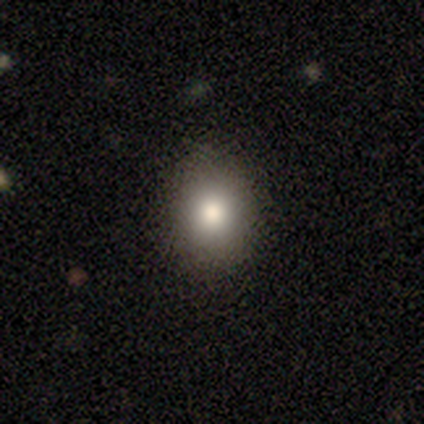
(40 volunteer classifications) Overall: smooth (75%). How rounded: round (80%). Merging: none (97%).